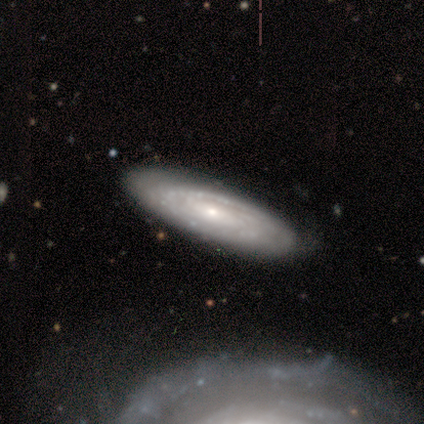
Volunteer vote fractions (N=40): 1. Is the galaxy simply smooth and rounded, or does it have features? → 85% featured or disk, 12% smooth, 2% star or artifact.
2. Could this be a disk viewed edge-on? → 91% no, 9% yes.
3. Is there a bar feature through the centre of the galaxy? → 65% no, 26% weak, 10% strong.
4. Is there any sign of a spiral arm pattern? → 100% yes, 0% no.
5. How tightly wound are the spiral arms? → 68% tight, 26% medium, 6% loose.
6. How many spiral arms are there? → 68% can't tell, 19% 2, 6% 4, 3% 1, 3% 3, 0% more than 4.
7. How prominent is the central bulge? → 45% moderate (tied), 45% small (tied), 6% large, 3% dominant, 0% none.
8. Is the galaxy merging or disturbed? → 54% none, 10% minor disturbance, 3% merger, 0% major disturbance.